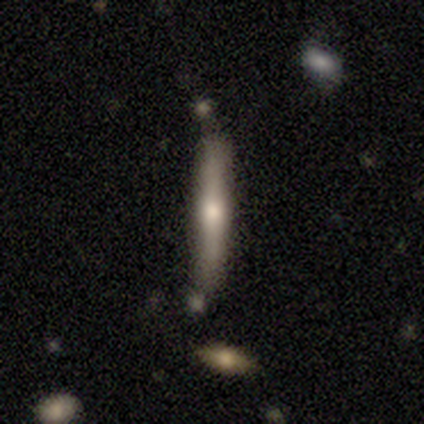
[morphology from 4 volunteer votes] Q: Smooth or featured?
A: smooth (100%)
Q: How rounded?
A: cigar-shaped (100%)
Q: Merging?
A: none (75%); runner-up: minor disturbance (25%)